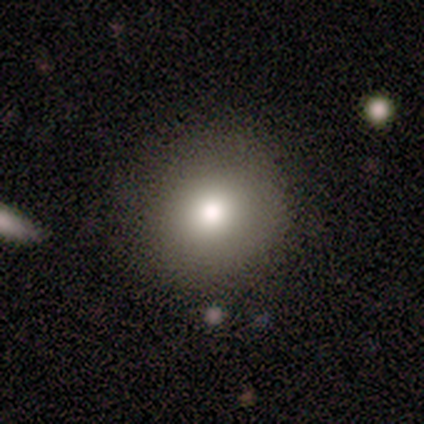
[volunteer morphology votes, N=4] Overall: smooth (50%; featured or disk 25%). How rounded: round (100%). Merging: none (100%).